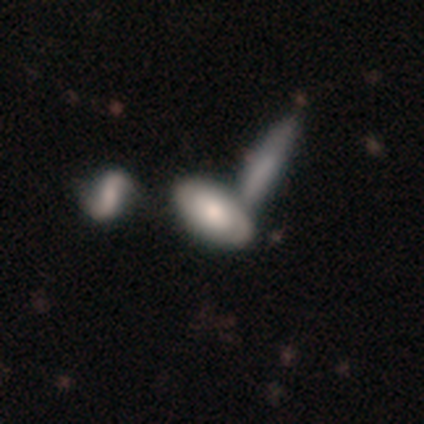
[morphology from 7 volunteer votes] This is clearly a smooth galaxy (100%). How rounded: likely in between (71%). Merging: possibly minor disturbance (57%).